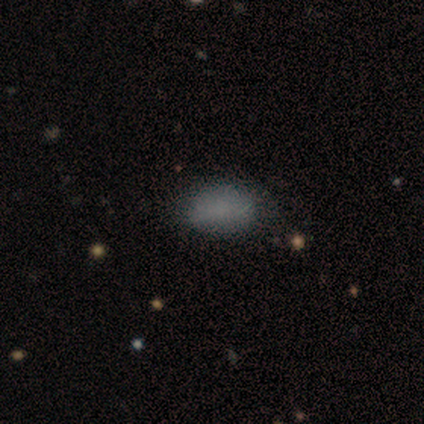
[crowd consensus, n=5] A smooth galaxy with no disk features (100%) that is in between round and cigar-shaped (100%).

Vote fractions:
- Smooth or featured? smooth: 100% / featured or disk: 0% / star or artifact: 0%
- How rounded? in between: 100% / round: 0% / cigar-shaped: 0%
- Merging? none: 80% / minor disturbance: 20% / major disturbance: 0% / merger: 0%